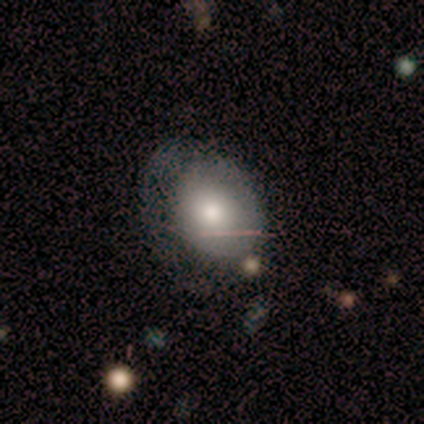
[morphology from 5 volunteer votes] smooth-or-featured: smooth: 80% | star or artifact: 20% | featured or disk: 0%
  how-rounded: in between: 75% | round: 25% | cigar-shaped: 0%
  merging: none: 50% (tied) | major disturbance: 50% (tied) | minor disturbance: 0% | merger: 0%